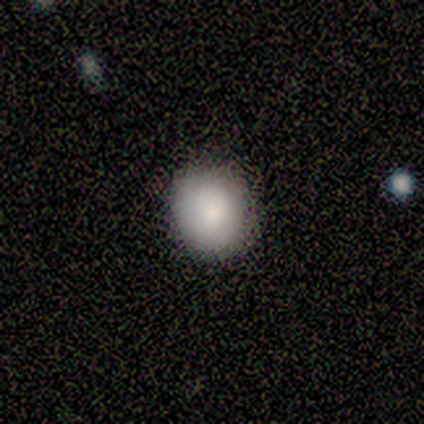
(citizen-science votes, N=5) Volunteers were most divided on "how rounded": round: 80%, in between: 20%, cigar-shaped: 0%. More confident: smooth or featured — smooth (100%); merging — none (100%).